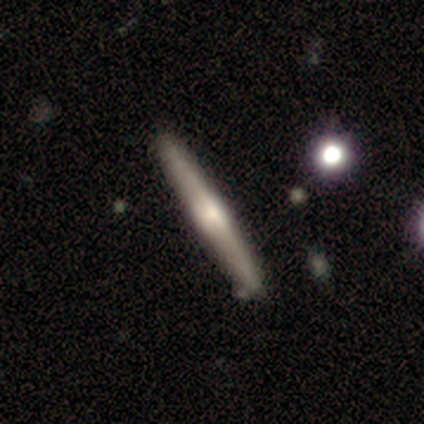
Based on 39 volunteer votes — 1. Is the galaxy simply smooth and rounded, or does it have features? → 67% featured or disk, 28% smooth, 5% star or artifact.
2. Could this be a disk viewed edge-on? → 100% yes, 0% no.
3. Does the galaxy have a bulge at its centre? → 42% none, 38% rounded, 19% boxy.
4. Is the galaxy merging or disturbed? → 95% none, 5% minor disturbance, 0% major disturbance, 0% merger.